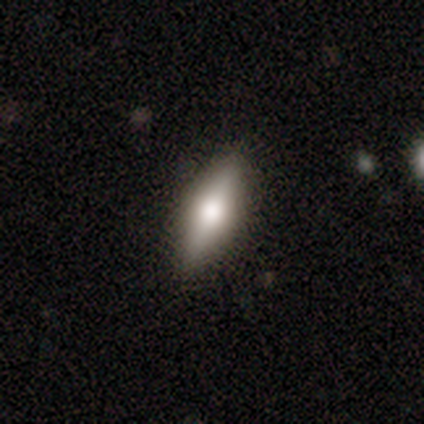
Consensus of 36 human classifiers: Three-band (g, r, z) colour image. It shows a smooth galaxy with no disk features (56%) that is cigar-shaped (60%). Merging: none (97%).